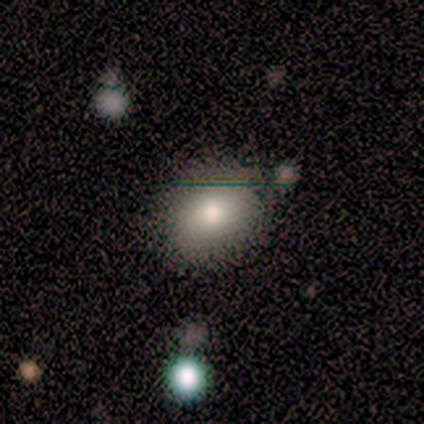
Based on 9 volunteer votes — Smooth or featured: smooth — 78% (featured or disk — 11%)
How rounded: round — 57% (in between — 43%)
Merging: none — 100%